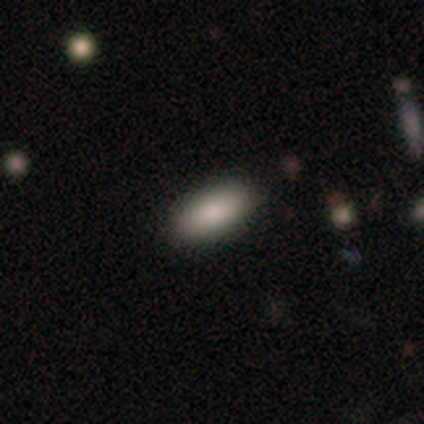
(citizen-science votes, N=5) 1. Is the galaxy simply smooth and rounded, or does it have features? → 80% smooth, 20% star or artifact, 0% featured or disk.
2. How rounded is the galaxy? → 100% in between, 0% round, 0% cigar-shaped.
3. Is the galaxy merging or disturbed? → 100% none, 0% minor disturbance, 0% major disturbance, 0% merger.